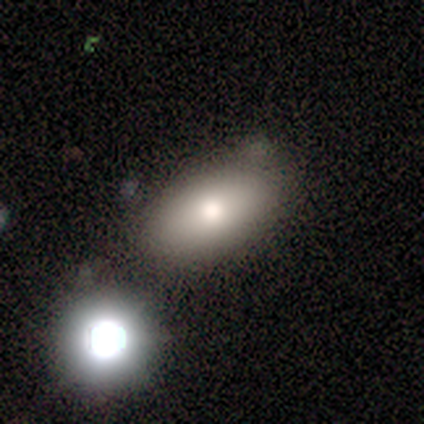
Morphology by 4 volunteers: This is clearly a smooth galaxy (100%). How rounded: clearly in between (100%). Merging: likely none (75%).